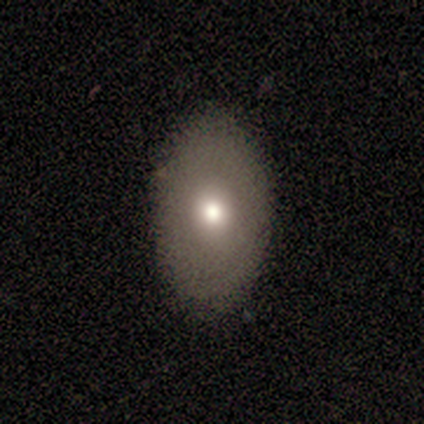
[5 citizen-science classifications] Q: Smooth or featured?
A: smooth (60%); runner-up: featured or disk (40%)
Q: How rounded?
A: in between (67%); runner-up: round (33%)
Q: Merging?
A: none (100%)